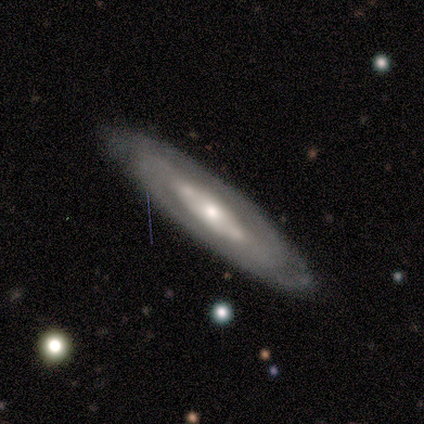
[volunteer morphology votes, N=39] Smooth or featured? 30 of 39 (77%) said featured or disk. Edge-on disk? 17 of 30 (57%) said no. Bar? 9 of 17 (53%) said no. Spiral arms? 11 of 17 (65%) said yes. Spiral winding? 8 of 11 (73%) said tight. Spiral arm count? 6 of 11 (55%) said 2. Bulge size? 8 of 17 (47%) said small. Merging? 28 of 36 (78%) said none.